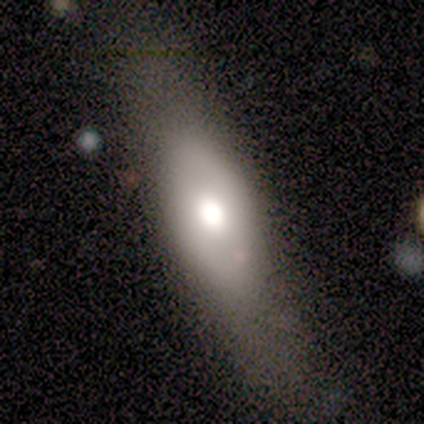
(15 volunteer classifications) Smooth or featured? smooth (60%)
How rounded? in between (89%)
Merging? none (67%)